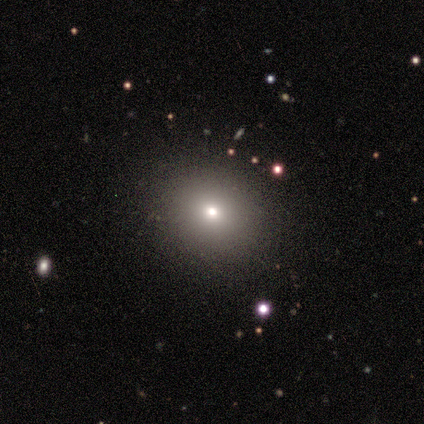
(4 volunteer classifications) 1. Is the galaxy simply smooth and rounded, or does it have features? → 100% smooth, 0% featured or disk, 0% star or artifact.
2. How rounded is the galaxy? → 75% round, 25% in between, 0% cigar-shaped.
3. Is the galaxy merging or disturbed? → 100% none, 0% minor disturbance, 0% major disturbance, 0% merger.